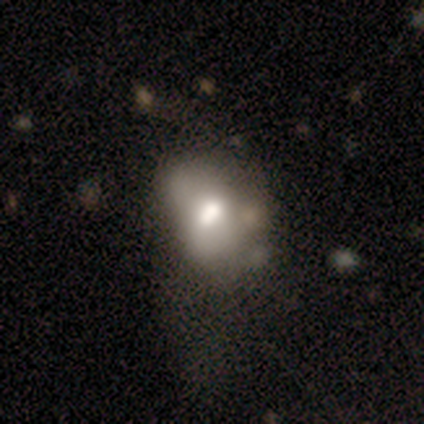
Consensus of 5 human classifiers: Smooth or featured? featured or disk (60%)
Edge-on disk? no (100%)
Bar? no (67%)
Spiral arms? no (100%)
Bulge size? moderate (100%)
Merging? none (75%)